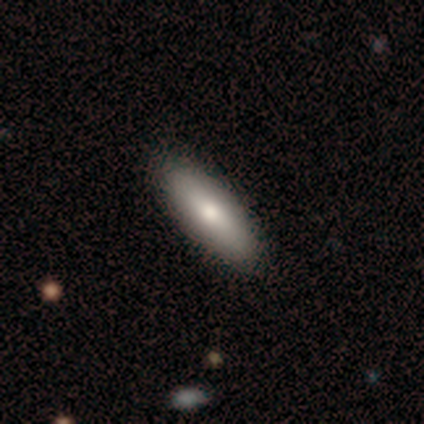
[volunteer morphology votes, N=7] Smooth or featured? smooth (86%)
How rounded? in between (67%)
Merging? none (83%)